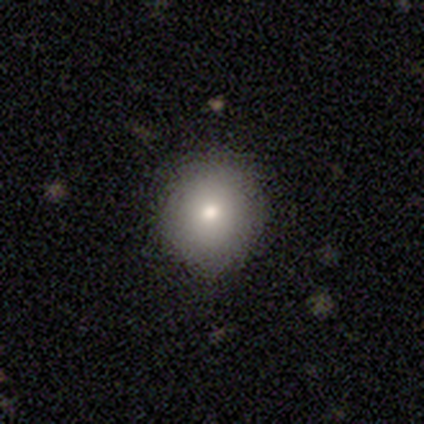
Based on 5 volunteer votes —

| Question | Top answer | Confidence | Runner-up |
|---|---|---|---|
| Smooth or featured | smooth | 80% | featured or disk (20%) |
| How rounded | round | 100% | — |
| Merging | none | 60% | minor disturbance (40%) |